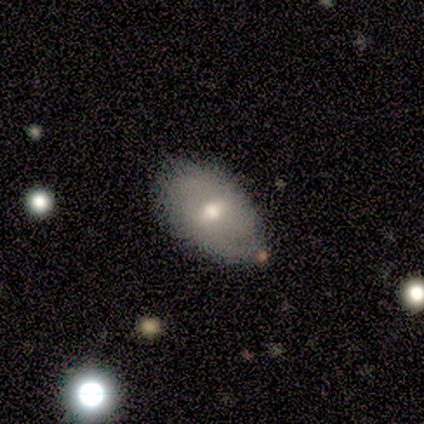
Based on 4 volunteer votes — smooth 50% (tied), featured or disk 50% (tied), star or artifact 0%. Down the decision tree: how rounded — in between (100%); merging — none (100%).